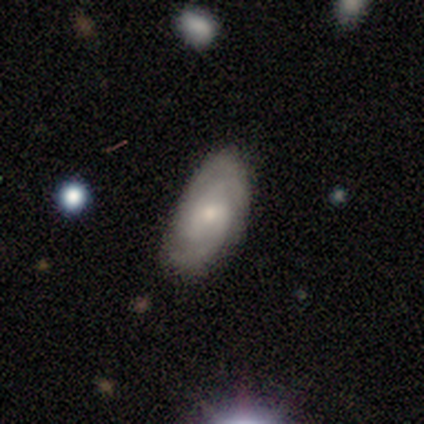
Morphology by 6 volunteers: Volunteers were most divided on "spiral arm count" (2-way tie): 2: 40%, 3: 40%, 4: 20%, 1: 0%, more than 4: 0%, can't tell: 0%. More confident: edge-on disk — no (100%); spiral arms — yes (100%); bulge size — small (100%); smooth or featured — featured or disk (83%); bar — weak (80%); merging — none (67%); spiral winding — tight (60%).